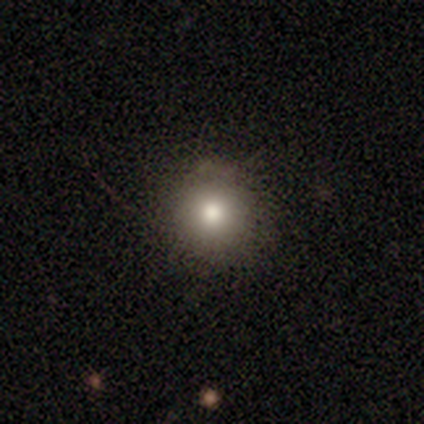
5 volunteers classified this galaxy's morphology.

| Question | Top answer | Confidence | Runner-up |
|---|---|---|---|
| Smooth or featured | smooth | 60% | star or artifact (40%) |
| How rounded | round | 100% | — |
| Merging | none | 100% | — |